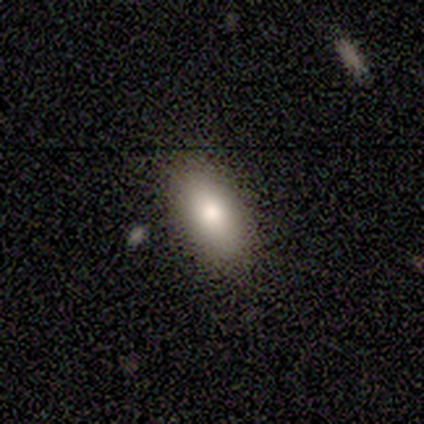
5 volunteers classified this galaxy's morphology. A smooth galaxy with no disk features (80%) that is in between round and cigar-shaped (100%).

Vote fractions:
- Smooth or featured? smooth: 80% / featured or disk: 20% / star or artifact: 0%
- How rounded? in between: 100% / round: 0% / cigar-shaped: 0%
- Merging? none: 80% / major disturbance: 20% / minor disturbance: 0% / merger: 0%